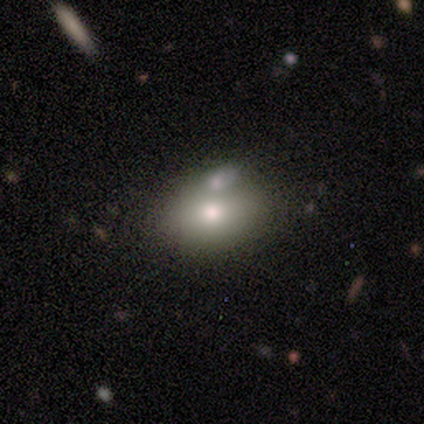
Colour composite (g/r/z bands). It shows a smooth galaxy with no disk features (74%) that is in between round and cigar-shaped (68%). Merging: none (42%).